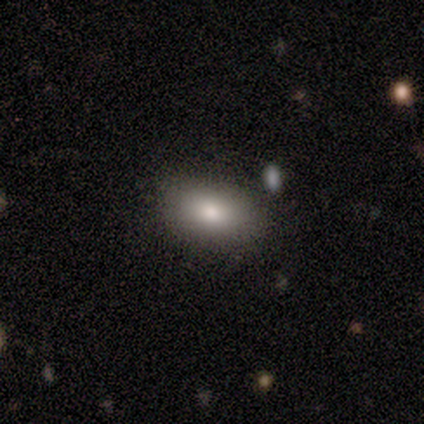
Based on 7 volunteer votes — Smooth or featured?
  - smooth: 86% *
  - featured or disk: 14%
  - star or artifact: 0%
How rounded?
  - in between: 100% *
  - round: 0%
  - cigar-shaped: 0%
Merging?
  - none: 57% *
  - minor disturbance: 43%
  - major disturbance: 0%
  - merger: 0%